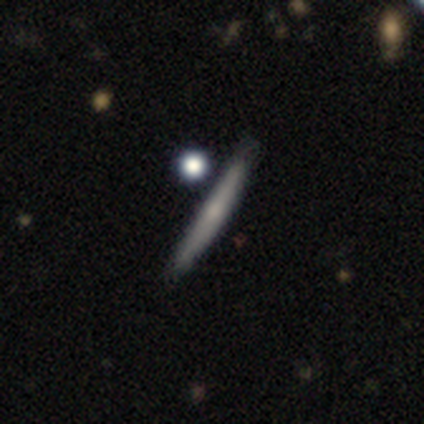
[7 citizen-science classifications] smooth-or-featured: featured or disk: 57% | smooth: 29% | star or artifact: 14%
  disk-edge-on: yes: 75% | no: 25%
    edge-on-bulge: rounded: 100% | boxy: 0% | none: 0%
  merging: none: 67% | minor disturbance: 17% | merger: 17% | major disturbance: 0%